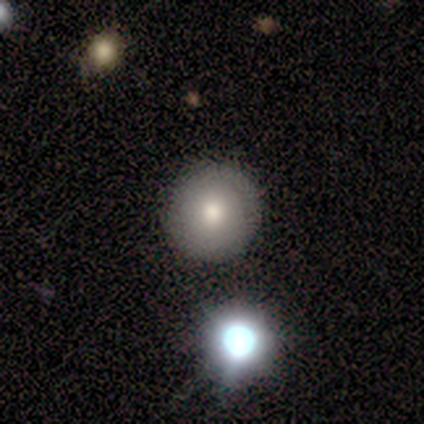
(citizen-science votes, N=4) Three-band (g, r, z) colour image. It shows a featured or disk galaxy (75%) with no bar (100%), no spiral arms (100%) and a moderate central bulge (67%). Merging: none (100%).